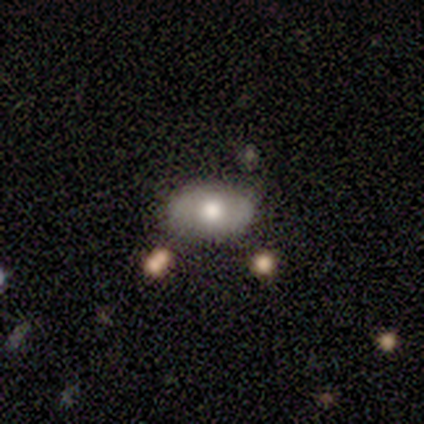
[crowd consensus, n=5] smooth-or-featured: smooth: 60% | featured or disk: 40% | star or artifact: 0%
  how-rounded: in between: 100% | round: 0% | cigar-shaped: 0%
  merging: none: 100% | minor disturbance: 0% | major disturbance: 0% | merger: 0%